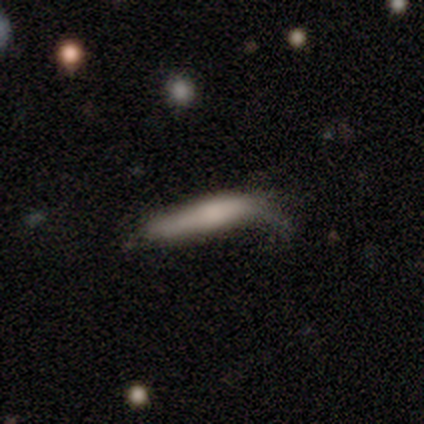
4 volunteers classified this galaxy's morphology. Q: Smooth or featured?
A: smooth (50%); tied with: featured or disk (50%)
Q: How rounded?
A: cigar-shaped (100%)
Q: Merging?
A: minor disturbance (75%); runner-up: major disturbance (25%)